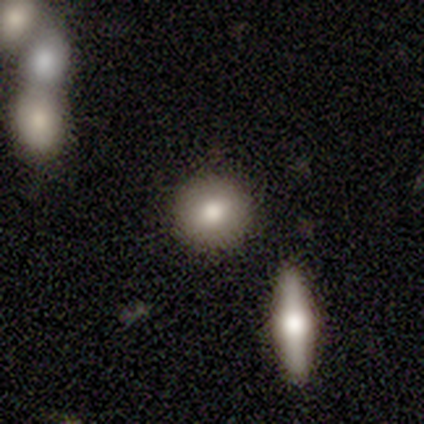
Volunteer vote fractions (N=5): Smooth or featured: smooth — 100%
How rounded: round — 80% (cigar-shaped — 20%)
Merging: none — 80% (merger — 20%)